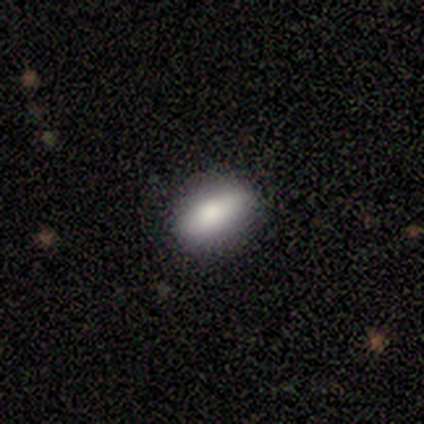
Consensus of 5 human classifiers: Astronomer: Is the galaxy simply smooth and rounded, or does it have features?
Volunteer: smooth — 80%.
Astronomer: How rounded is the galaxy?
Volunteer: in between — 75%.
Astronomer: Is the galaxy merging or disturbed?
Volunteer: none — 60%.